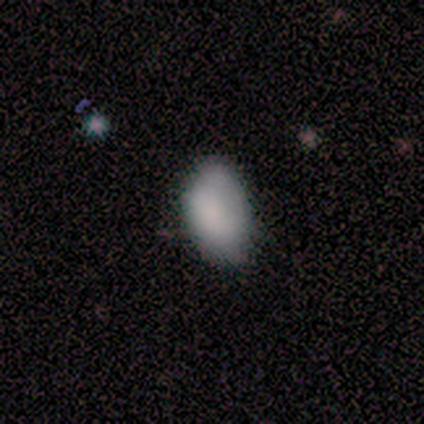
Smooth or featured: smooth — 100%
How rounded: in between — 100%
Merging: none — 50% (tied with minor disturbance — 50%)